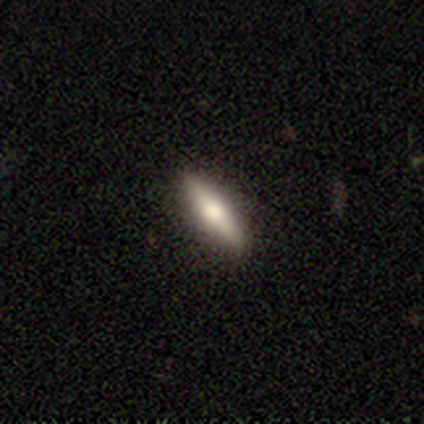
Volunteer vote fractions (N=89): A smooth galaxy with no disk features (49%) that is cigar-shaped (75%). Merging: none (94%).